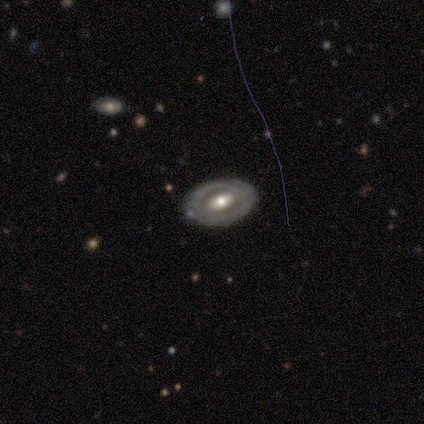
This appears to be a featured or disk galaxy (100%) with no bar (60%), 2 (100%) tight (67%) spiral arms (60%) and a moderate central bulge (80%). Merging: none (80%).